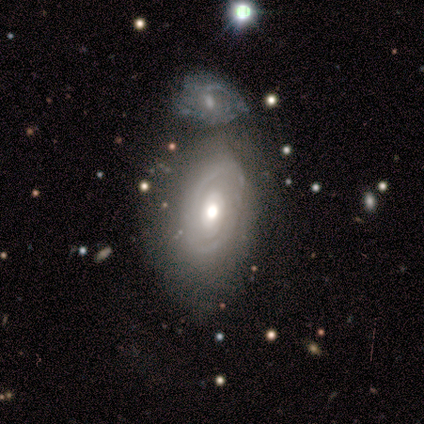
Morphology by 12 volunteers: Overall: featured or disk (75%). Edge-on disk: no (100%). Bar: no (89%). Spiral arms: yes (56%; no 44%). Spiral arm count: 2 (60%; 1 20%). Spiral winding: tight (60%; medium 20%). Bulge size: moderate (78%). Merging: none (42%; merger 33%).